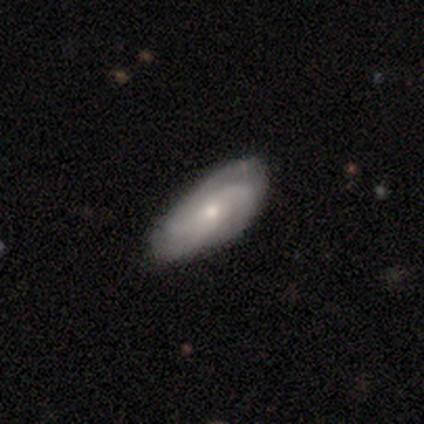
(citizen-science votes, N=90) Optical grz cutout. It shows a featured or disk galaxy (63%) with no bar (61%), 3 (36%) medium (60%) spiral arms (92%) and a small central bulge (53%). Merging: none (67%).